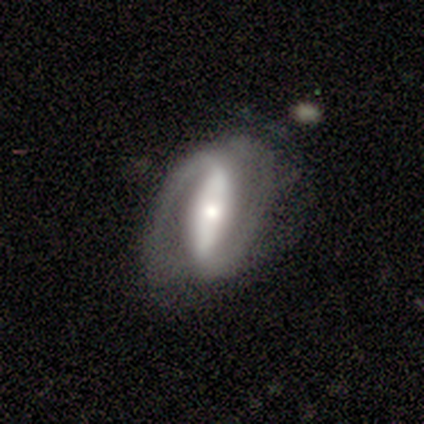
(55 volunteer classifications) Smooth or featured? featured or disk (82%)
Edge-on disk? no (91%)
Bar? strong (80%)
Spiral arms? yes (88%)
Spiral winding? tight (47%)
Spiral arm count? 2 (92%)
Bulge size? moderate (41%)
Merging? none (46%)